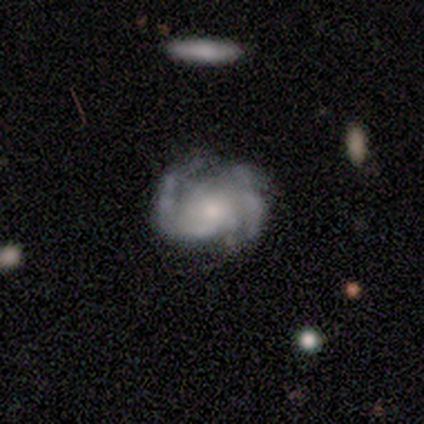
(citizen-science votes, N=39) Smooth or featured?
  - featured or disk: 85% *
  - smooth: 8%
  - star or artifact: 8%
Edge-on disk?
  - no: 100% *
  - yes: 0%
Bar?
  - no: 52% *
  - weak: 45%
  - strong: 3%
Spiral arms?
  - yes: 97% *
  - no: 3%
Spiral winding?
  - medium: 56% *
  - loose: 25%
  - tight: 19%
Spiral arm count?
  - 2: 50% *
  - can't tell: 25%
  - 3: 19%
  - 1: 3%
  - 4: 3%
  - more than 4: 0%
Bulge size?
  - small: 52% *
  - moderate: 30%
  - large: 9%
  - none: 9%
  - dominant: 0%
Merging?
  - none: 75% *
  - minor disturbance: 17%
  - major disturbance: 6%
  - merger: 3%